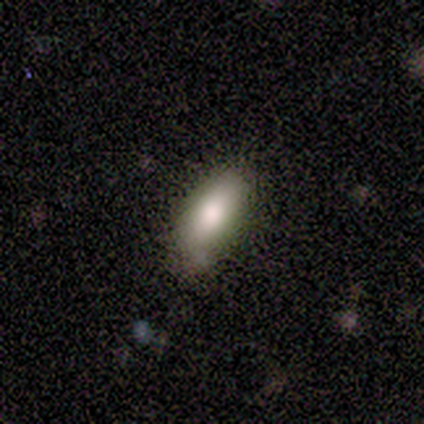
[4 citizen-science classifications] Smooth or featured? smooth (75%)
How rounded? in between (100%)
Merging? none (67%)